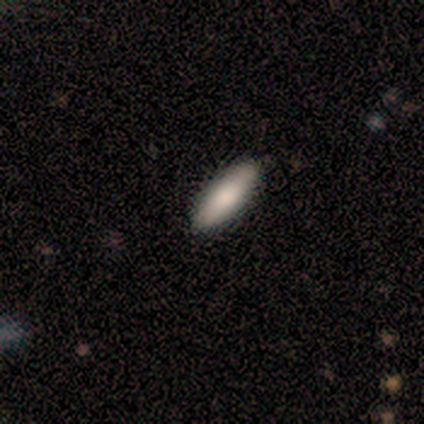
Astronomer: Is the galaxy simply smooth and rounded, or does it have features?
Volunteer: smooth — 100%.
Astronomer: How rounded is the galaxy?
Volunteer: in between — 100%.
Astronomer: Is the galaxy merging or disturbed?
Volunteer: none — 100%.